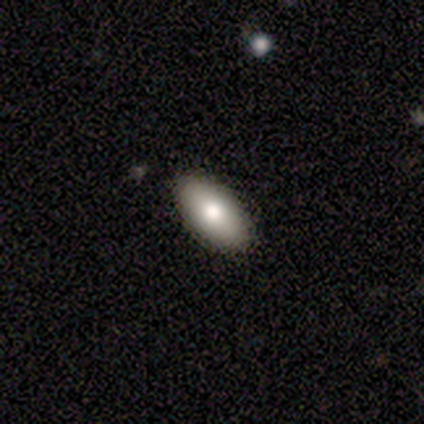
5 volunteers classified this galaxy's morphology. Overall: smooth (80%). How rounded: in between (100%). Merging: none (100%).